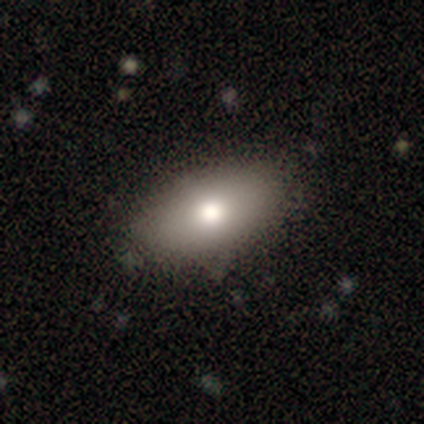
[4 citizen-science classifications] Smooth or featured?
  - smooth: 75% *
  - featured or disk: 25%
  - star or artifact: 0%
How rounded?
  - in between: 100% *
  - round: 0%
  - cigar-shaped: 0%
Merging?
  - none: 100% *
  - minor disturbance: 0%
  - major disturbance: 0%
  - merger: 0%